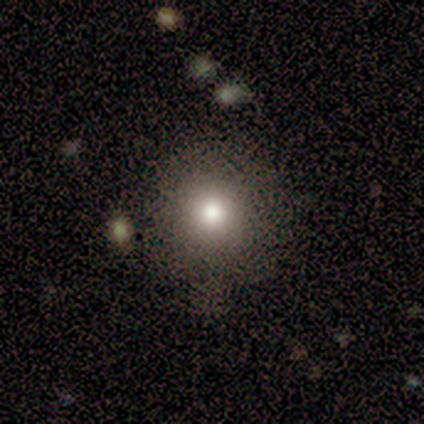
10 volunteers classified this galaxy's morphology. Smooth or featured: smooth — 80% (featured or disk — 10%)
How rounded: round — 100%
Merging: none — 89% (minor disturbance — 11%)